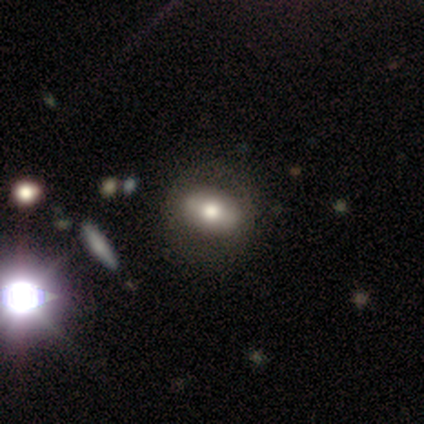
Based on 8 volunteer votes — Morphology: type=smooth (50%); roundness=in between (50%); merging=none (71%).